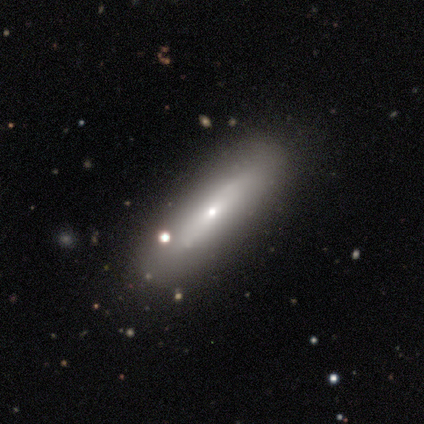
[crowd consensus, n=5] smooth-or-featured: featured or disk: 60% | smooth: 40% | star or artifact: 0%
  disk-edge-on: yes: 67% | no: 33%
    edge-on-bulge: rounded: 100% | boxy: 0% | none: 0%
  merging: none: 100% | minor disturbance: 0% | major disturbance: 0% | merger: 0%